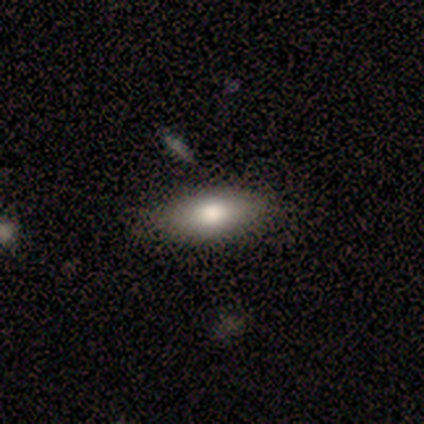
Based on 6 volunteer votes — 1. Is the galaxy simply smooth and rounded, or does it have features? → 83% smooth, 17% star or artifact, 0% featured or disk.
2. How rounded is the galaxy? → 80% in between, 20% cigar-shaped, 0% round.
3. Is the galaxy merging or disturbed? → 80% none, 20% minor disturbance, 0% major disturbance, 0% merger.